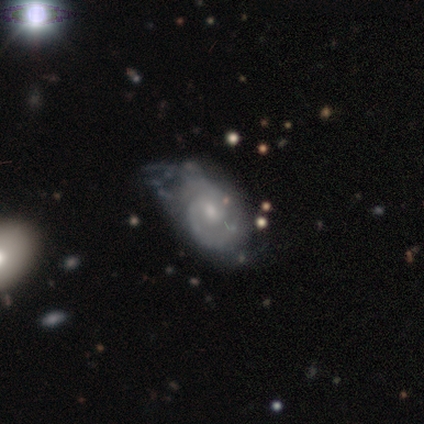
Smooth or featured? featured or disk (60%)
Edge-on disk? no (100%)
Bar? weak (67%)
Spiral arms? yes (100%)
Spiral winding? tight (67%)
Spiral arm count? 2 (100%)
Bulge size? moderate (67%)
Merging? minor disturbance (75%)